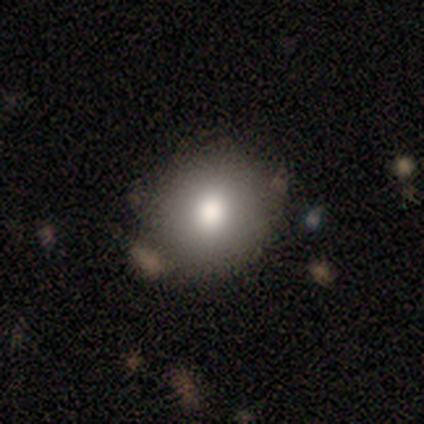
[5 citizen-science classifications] This is clearly a smooth galaxy (100%). How rounded: clearly round (100%). Merging: clearly none (100%).